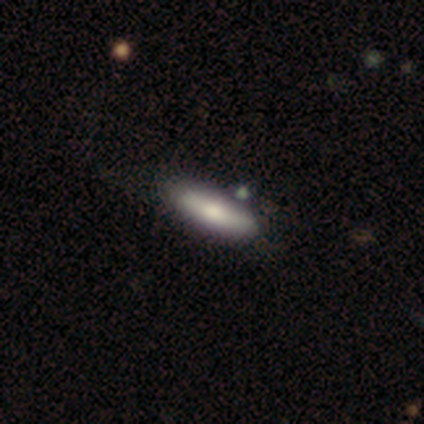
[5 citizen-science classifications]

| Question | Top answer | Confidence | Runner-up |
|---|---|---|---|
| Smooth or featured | smooth | 60% | featured or disk (40%) |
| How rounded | in between | 67% | cigar-shaped (33%) |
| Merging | none | 80% | minor disturbance (20%) |